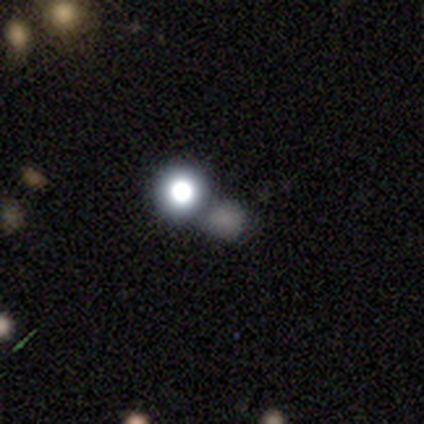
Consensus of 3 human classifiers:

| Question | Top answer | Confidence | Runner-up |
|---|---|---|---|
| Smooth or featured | smooth | 100% | — |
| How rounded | round | 100% | — |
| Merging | none | 33% | tied: minor disturbance (33%), merger (33%) |